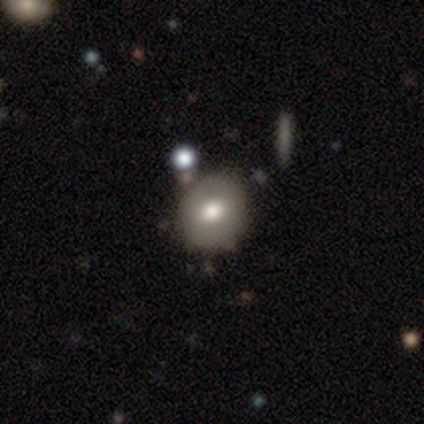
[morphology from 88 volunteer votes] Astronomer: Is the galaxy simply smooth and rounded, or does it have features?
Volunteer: smooth — 64%.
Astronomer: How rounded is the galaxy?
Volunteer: round — 71%.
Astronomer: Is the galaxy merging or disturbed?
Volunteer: none — 71%.